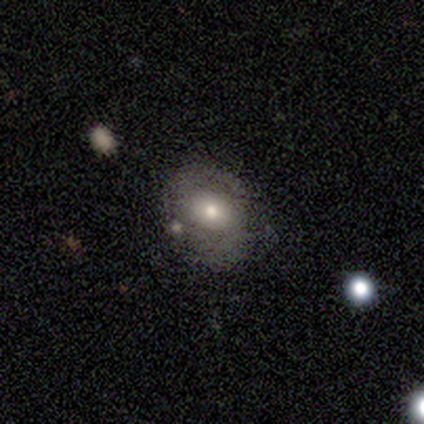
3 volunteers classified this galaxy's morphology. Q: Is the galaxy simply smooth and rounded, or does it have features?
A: featured or disk — 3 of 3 (100%).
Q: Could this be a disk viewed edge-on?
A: no — 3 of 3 (100%).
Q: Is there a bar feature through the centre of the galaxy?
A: no — 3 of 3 (100%).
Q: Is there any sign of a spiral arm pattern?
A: yes — 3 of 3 (100%).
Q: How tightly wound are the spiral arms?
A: tight — 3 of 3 (100%).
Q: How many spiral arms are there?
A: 2 — 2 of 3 (67%).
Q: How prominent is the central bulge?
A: moderate — 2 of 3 (67%).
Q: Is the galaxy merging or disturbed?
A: minor disturbance — 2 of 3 (67%).